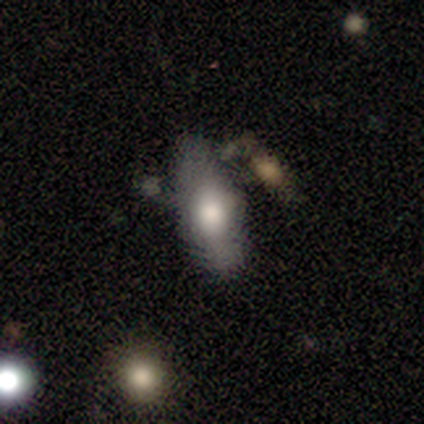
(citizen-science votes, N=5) Smooth or featured: smooth — 80% (featured or disk — 20%)
How rounded: in between — 75% (cigar-shaped — 25%)
Merging: none — 80% (minor disturbance — 20%)